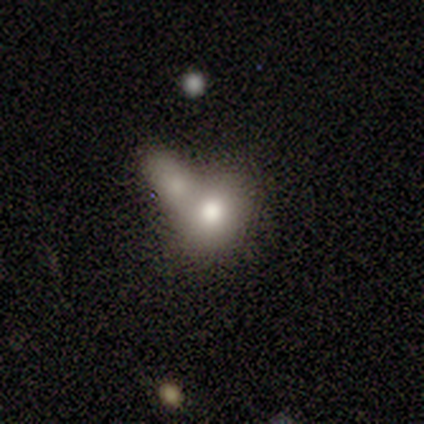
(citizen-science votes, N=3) Smooth or featured: smooth — 67% (featured or disk — 33%)
How rounded: round — 100%
Merging: merger — 100%